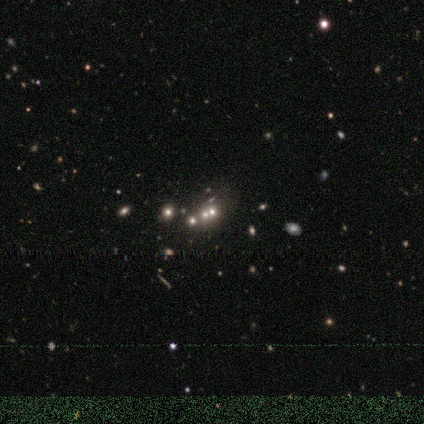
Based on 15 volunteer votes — This is marginally a smooth galaxy (40%). How rounded: likely round (67%). Merging: possibly none (50%, tied with merger).